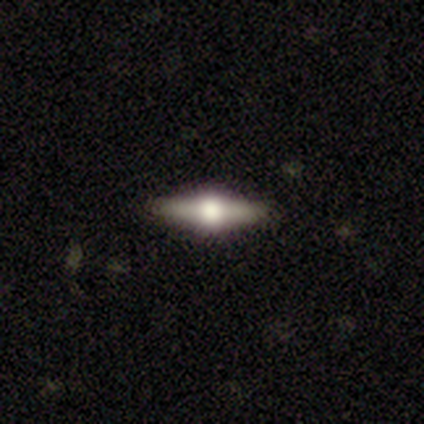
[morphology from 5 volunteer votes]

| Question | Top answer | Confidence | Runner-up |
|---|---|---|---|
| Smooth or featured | featured or disk | 80% | smooth (20%) |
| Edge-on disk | yes | 100% | — |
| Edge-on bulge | rounded | 100% | — |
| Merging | none | 100% | — |